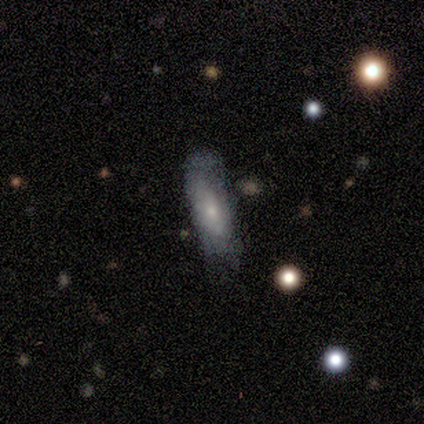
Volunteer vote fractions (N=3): featured or disk 67%, smooth 33%, star or artifact 0%. Down the decision tree: edge-on disk — yes (50%, tied with no); edge-on bulge — boxy (100%); merging — major disturbance (67%).